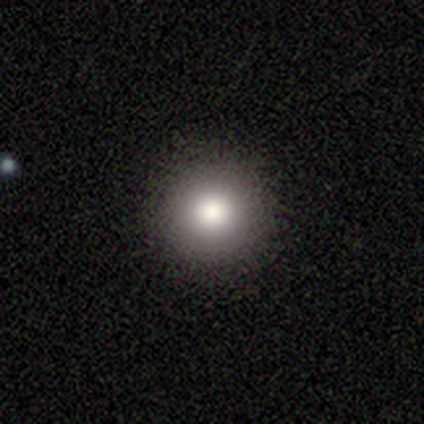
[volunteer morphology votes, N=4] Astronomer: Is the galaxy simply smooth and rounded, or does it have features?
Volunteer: smooth — 75%.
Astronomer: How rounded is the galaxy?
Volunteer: round — 100%.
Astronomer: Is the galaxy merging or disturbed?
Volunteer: none — 100%.